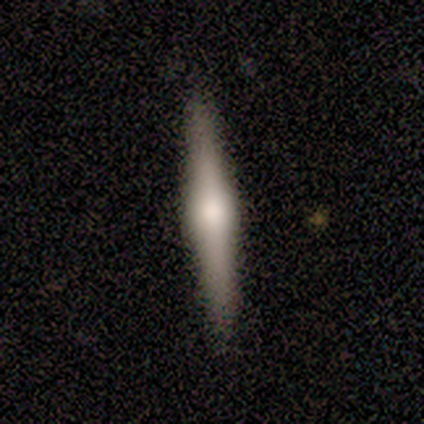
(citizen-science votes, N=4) Morphology: type=featured or disk (75%); edge-on=yes (100%); edge-on bulge=rounded (100%); merging=none (100%).